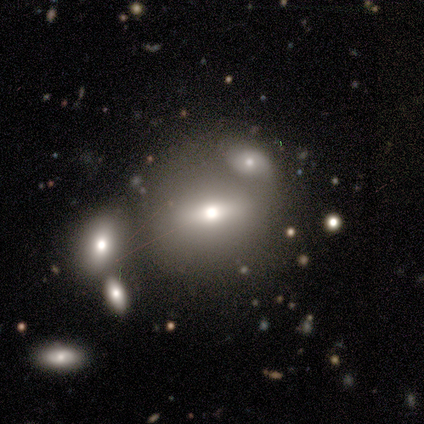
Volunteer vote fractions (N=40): smooth-or-featured: smooth: 60% | featured or disk: 32% | star or artifact: 8%
  how-rounded: in between: 54% | round: 38% | cigar-shaped: 8%
  merging: none: 43% | merger: 35% | minor disturbance: 14% | major disturbance: 8%